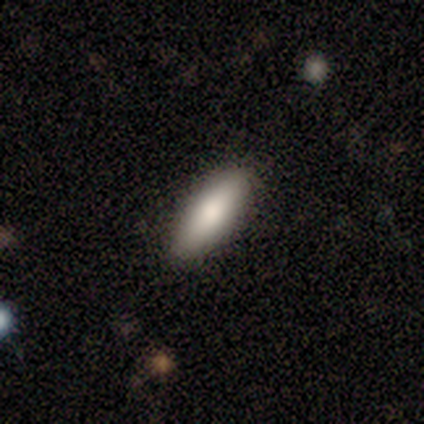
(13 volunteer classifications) smooth-or-featured: smooth: 85% | star or artifact: 15% | featured or disk: 0%
  how-rounded: in between: 64% | cigar-shaped: 36% | round: 0%
  merging: none: 91% | minor disturbance: 9% | major disturbance: 0% | merger: 0%